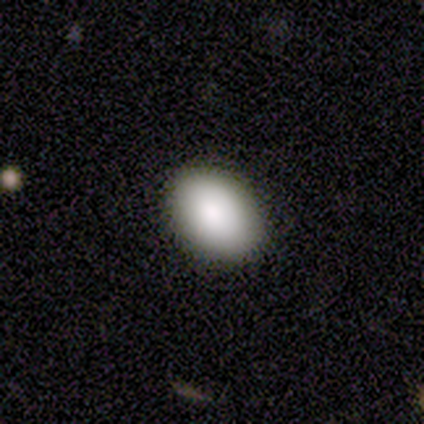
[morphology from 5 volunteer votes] Smooth or featured: smooth — 80% (star or artifact — 20%)
How rounded: in between — 75% (round — 25%)
Merging: none — 100%